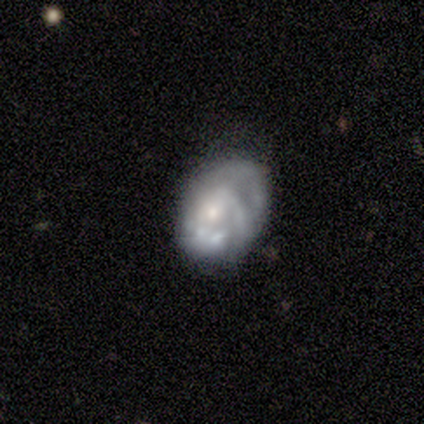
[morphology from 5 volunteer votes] smooth-or-featured: featured or disk: 80% | smooth: 20% | star or artifact: 0%
  disk-edge-on: no: 100% | yes: 0%
    bar: no: 100% | strong: 0% | weak: 0%
    has-spiral-arms: yes: 50% (tied) | no: 50% (tied)
      spiral-winding: tight: 50% (tied) | medium: 50% (tied) | loose: 0%
      spiral-arm-count: can't tell: 100% | 1: 0% | 2: 0% | 3: 0% | 4: 0% | more than 4: 0%
    bulge-size: small: 75% | moderate: 25% | dominant: 0% | large: 0% | none: 0%
  merging: none: 60% | minor disturbance: 40% | major disturbance: 0% | merger: 0%